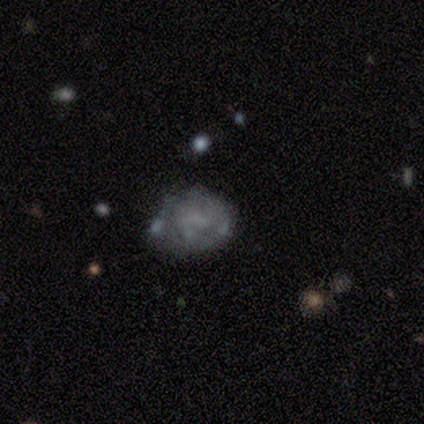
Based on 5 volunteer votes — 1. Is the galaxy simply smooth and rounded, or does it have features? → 60% featured or disk, 40% smooth, 0% star or artifact.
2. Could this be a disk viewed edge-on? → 100% no, 0% yes.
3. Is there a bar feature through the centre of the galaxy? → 100% no, 0% strong, 0% weak.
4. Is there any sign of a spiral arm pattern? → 100% no, 0% yes.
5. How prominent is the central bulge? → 67% none, 33% small, 0% dominant, 0% large, 0% moderate.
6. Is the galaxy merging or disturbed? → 60% minor disturbance, 40% none, 0% major disturbance, 0% merger.